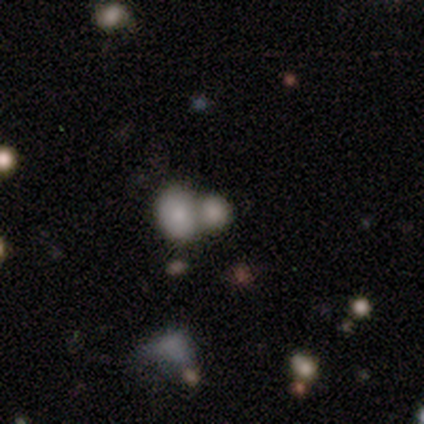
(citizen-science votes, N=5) Morphology: type=smooth (80%); roundness=round (50%, tied with in between); merging=merger (80%).